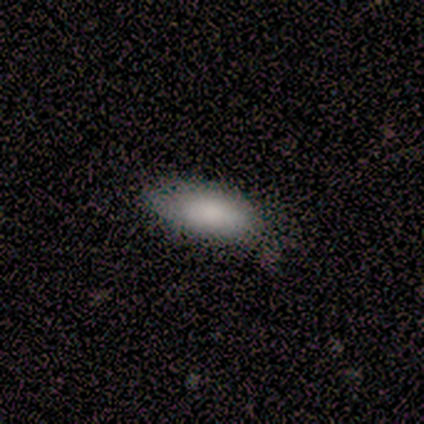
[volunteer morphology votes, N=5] smooth-or-featured: smooth: 100% | featured or disk: 0% | star or artifact: 0%
  how-rounded: in between: 100% | round: 0% | cigar-shaped: 0%
  merging: none: 80% | minor disturbance: 20% | major disturbance: 0% | merger: 0%